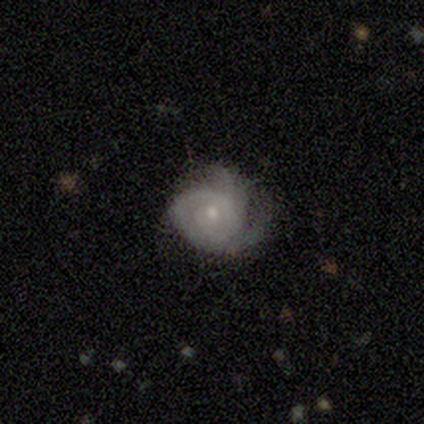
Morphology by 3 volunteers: A featured or disk galaxy (100%) with no bar (100%), no spiral arms (67%) and a small central bulge (100%).

Vote fractions:
- Smooth or featured? featured or disk: 100% / smooth: 0% / star or artifact: 0%
- Edge-on disk? no: 100% / yes: 0%
- Bar? no: 100% / strong: 0% / weak: 0%
- Spiral arms? no: 67% / yes: 33%
- Bulge size? small: 100% / dominant: 0% / large: 0% / moderate: 0% / none: 0%
- Merging? none: 67% / major disturbance: 33% / minor disturbance: 0% / merger: 0%